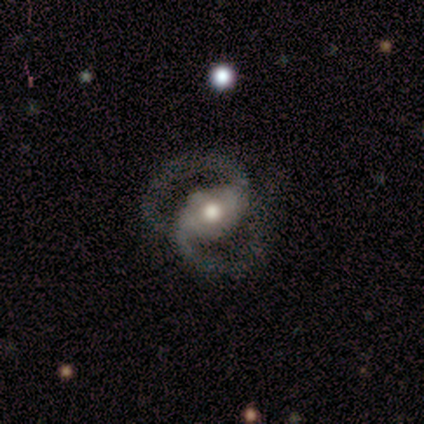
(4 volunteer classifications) Morphology: type=featured or disk (100%); edge-on=no (100%); bar=weak (50%); spiral arms=yes (100%); winding=tight (75%); arm count=2 (100%); bulge=large (50%, tied with moderate); merging=none (100%).